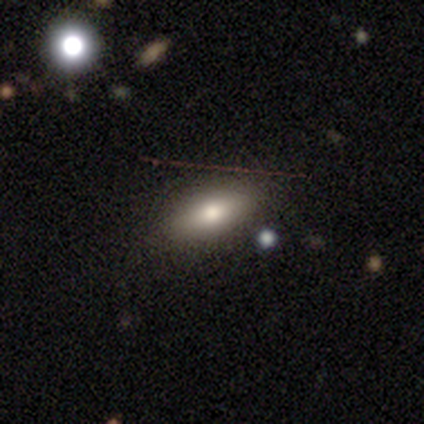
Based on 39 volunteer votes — Volunteers were most divided on "smooth or featured": smooth: 64%, featured or disk: 21%, star or artifact: 15%. More confident: merging — none (88%); how rounded — in between (80%).